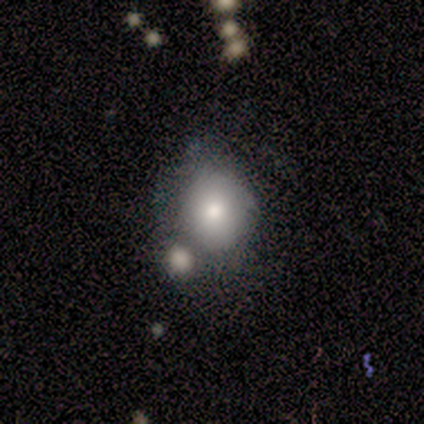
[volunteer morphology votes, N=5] Smooth or featured? smooth (60%)
How rounded? round (67%)
Merging? none (80%)